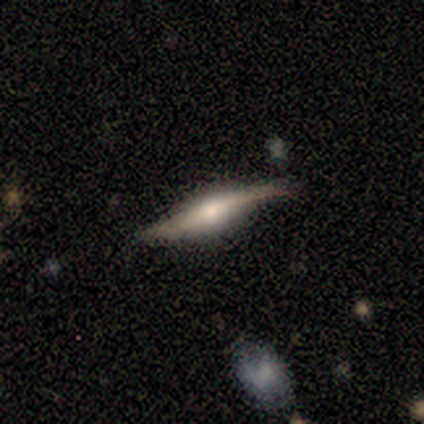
Q: Smooth or featured?
A: featured or disk (93%); runner-up: star or artifact (7%)
Q: Edge-on disk?
A: yes (100%)
Q: Edge-on bulge?
A: rounded (62%); runner-up: boxy (38%)
Q: Merging?
A: none (62%); runner-up: minor disturbance (31%)